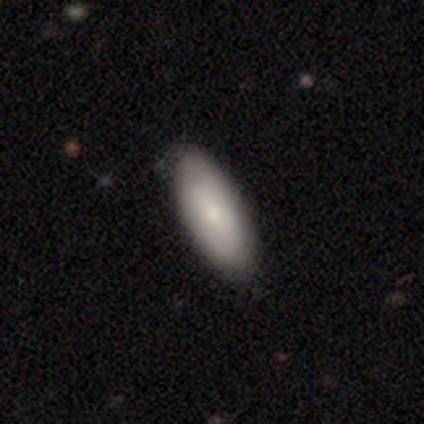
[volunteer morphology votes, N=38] Smooth or featured? 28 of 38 (74%) said smooth. How rounded? 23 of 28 (82%) said in between. Merging? 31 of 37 (84%) said none.